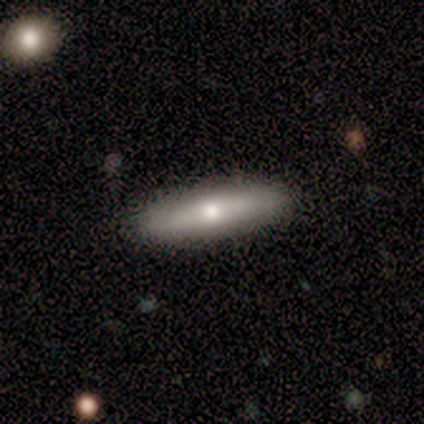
Smooth or featured?
  - featured or disk: 70% *
  - smooth: 20%
  - star or artifact: 10%
Edge-on disk?
  - yes: 71% *
  - no: 29%
Edge-on bulge?
  - rounded: 60% *
  - boxy: 20%
  - none: 20%
Merging?
  - none: 100% *
  - minor disturbance: 0%
  - major disturbance: 0%
  - merger: 0%